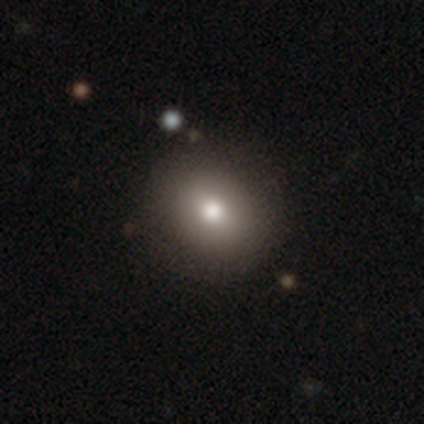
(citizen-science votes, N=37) Volunteers were most divided on "how rounded": round: 73%, in between: 27%, cigar-shaped: 0%. More confident: merging — none (86%); smooth or featured — smooth (81%).